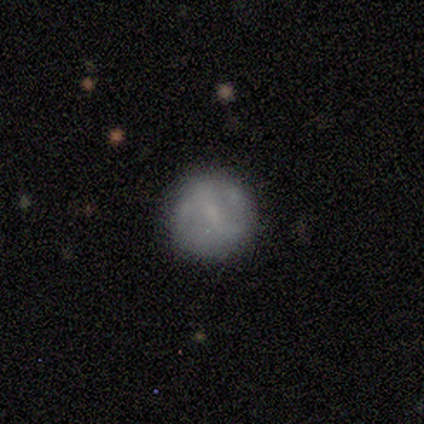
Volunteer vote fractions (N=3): A featured or disk galaxy (67%) with a weak bar (50%, tied with no), no spiral arms (100%) and a small central bulge (50%, tied with none).

Vote fractions:
- Smooth or featured? featured or disk: 67% / smooth: 33% / star or artifact: 0%
- Edge-on disk? no: 100% / yes: 0%
- Bar? weak: 50% (tied) / no: 50% (tied) / strong: 0%
- Spiral arms? no: 100% / yes: 0%
- Bulge size? small: 50% (tied) / none: 50% (tied) / dominant: 0% / large: 0% / moderate: 0%
- Merging? none: 100% / minor disturbance: 0% / major disturbance: 0% / merger: 0%